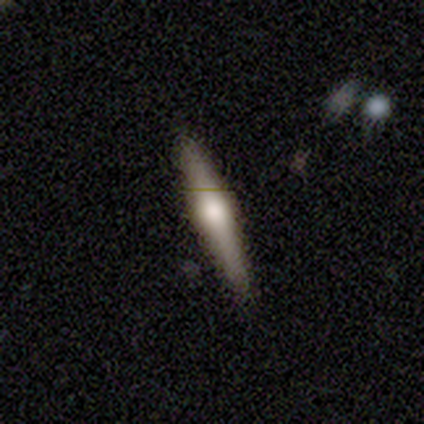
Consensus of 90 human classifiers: Smooth or featured? 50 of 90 (56%) said featured or disk. Edge-on disk? 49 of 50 (98%) said yes. Edge-on bulge? 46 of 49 (94%) said rounded. Merging? 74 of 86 (86%) said none.